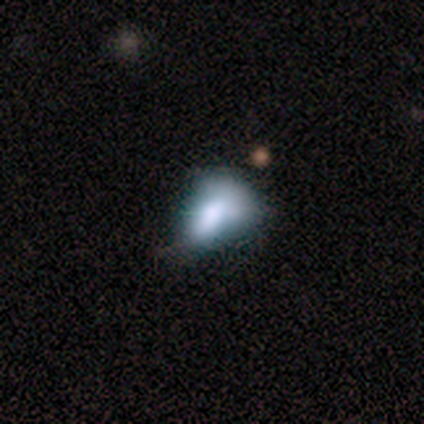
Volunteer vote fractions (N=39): This appears to be a smooth galaxy with no disk features (49%) that is in between round and cigar-shaped (89%). Merging: minor disturbance (47%).